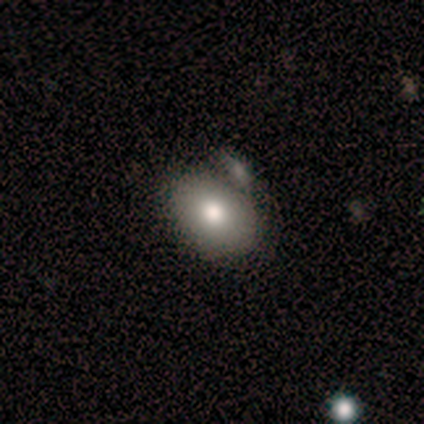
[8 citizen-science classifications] smooth_or_featured: smooth (p=0.88) [alt: featured or disk p=0.12]
how_rounded: in between (p=0.86) [alt: round p=0.14]
merging: merger (p=0.50) [alt: none p=0.25]